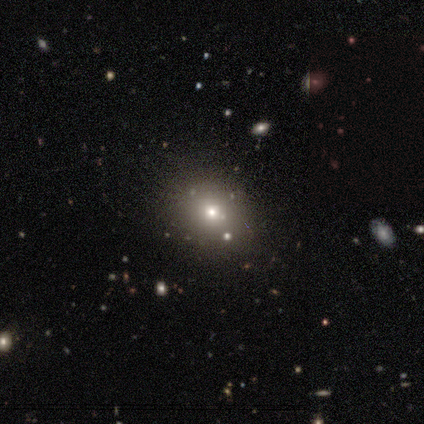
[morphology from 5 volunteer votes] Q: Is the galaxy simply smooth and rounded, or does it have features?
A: smooth — 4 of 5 (80%).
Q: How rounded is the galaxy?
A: in between — 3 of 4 (75%).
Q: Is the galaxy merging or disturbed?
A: none — 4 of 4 (100%).